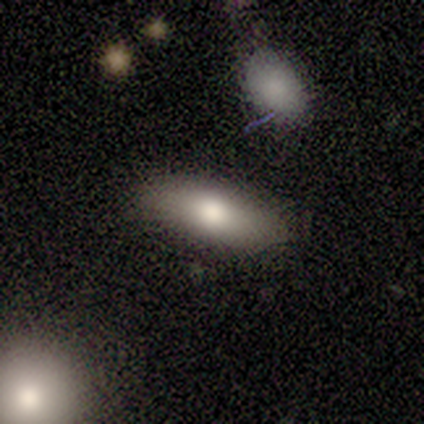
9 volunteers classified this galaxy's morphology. smooth 78%, featured or disk 22%, star or artifact 0%. Down the decision tree: how rounded — in between (100%); merging — none (78%).